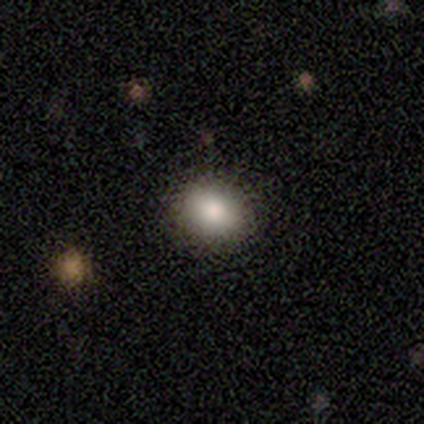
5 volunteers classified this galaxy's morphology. smooth_or_featured: smooth (p=0.60) [alt: star or artifact p=0.40]
how_rounded: round (p=0.67) [alt: in between p=0.33]
merging: none (p=1.00)